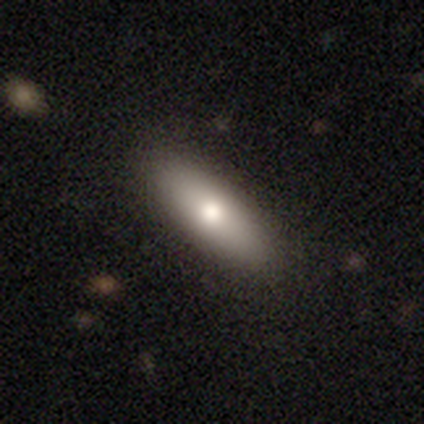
Smooth or featured: smooth — 76% (featured or disk — 20%)
How rounded: in between — 63% (cigar-shaped — 37%)
Merging: none — 85% (minor disturbance — 10%)